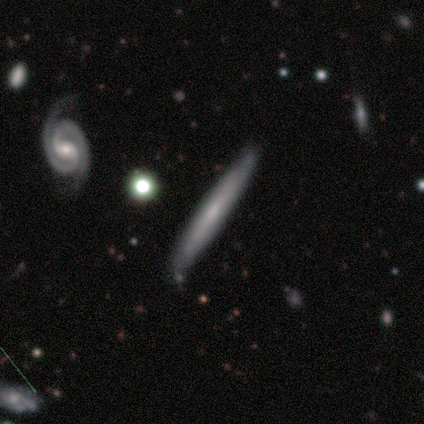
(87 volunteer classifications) smooth-or-featured: featured or disk: 57% | smooth: 37% | star or artifact: 6%
  disk-edge-on: yes: 82% | no: 18%
    edge-on-bulge: none: 68% | boxy: 17% | rounded: 15%
  merging: none: 79% | minor disturbance: 13% | merger: 5% | major disturbance: 2%